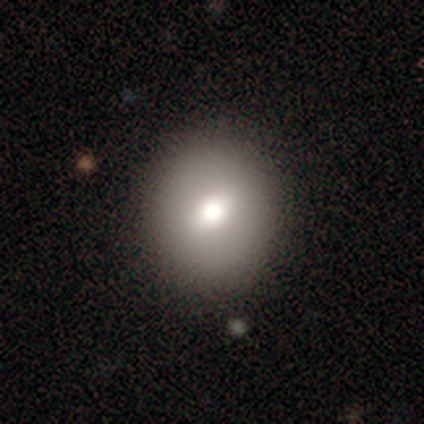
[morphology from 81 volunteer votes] Smooth or featured? 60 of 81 (74%) said smooth. How rounded? 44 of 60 (73%) said round. Merging? 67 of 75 (89%) said none.